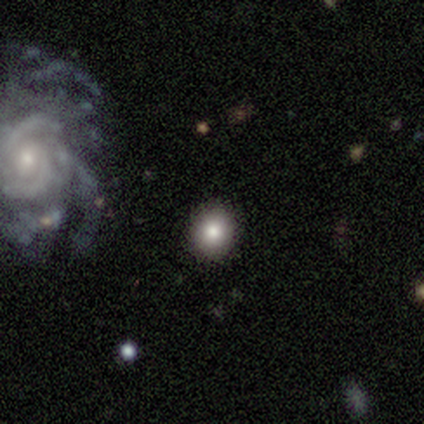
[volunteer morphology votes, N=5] Volunteers were most divided on "smooth or featured": smooth: 60%, featured or disk: 20%, star or artifact: 20%. More confident: how rounded — round (100%); merging — none (75%).